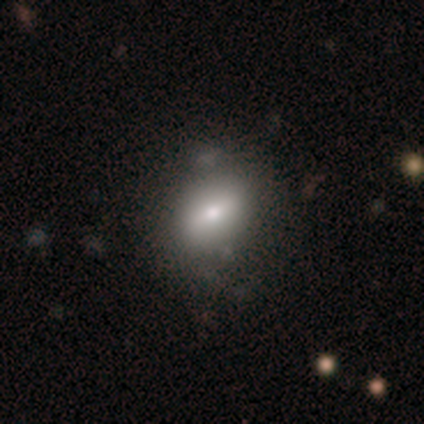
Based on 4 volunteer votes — Smooth or featured?
  - smooth: 75% *
  - featured or disk: 25%
  - star or artifact: 0%
How rounded?
  - in between: 67% *
  - round: 33%
  - cigar-shaped: 0%
Merging?
  - minor disturbance: 50% *
  - none: 25%
  - major disturbance: 25%
  - merger: 0%